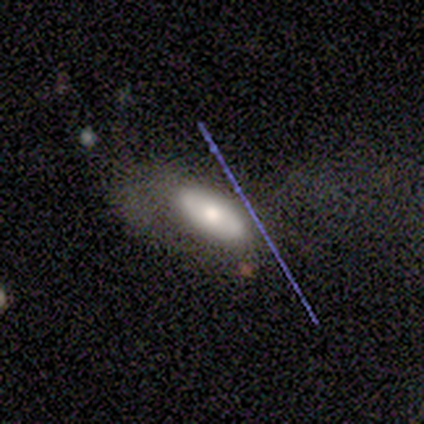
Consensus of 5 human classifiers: Morphology: type=smooth (80%); roundness=in between (100%); merging=none (60%).